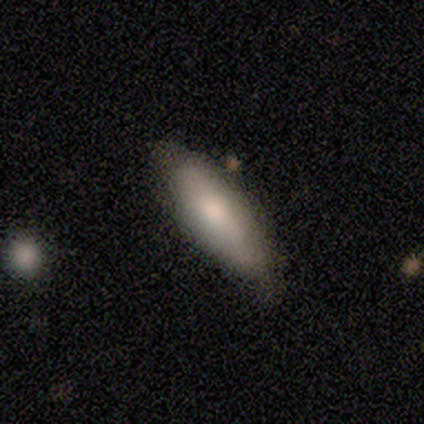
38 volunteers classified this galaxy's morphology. Smooth or featured? smooth (66%)
How rounded? in between (52%)
Merging? none (53%)